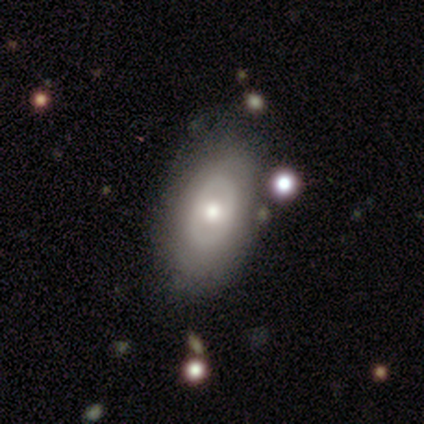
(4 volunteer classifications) This is likely a featured or disk galaxy (75%). It is clearly not viewed edge-on (100%). Bar: clearly no (100%). Spiral arm pattern: clearly no (100%). Central bulge: likely moderate (67%). Merging: possibly none (50%).